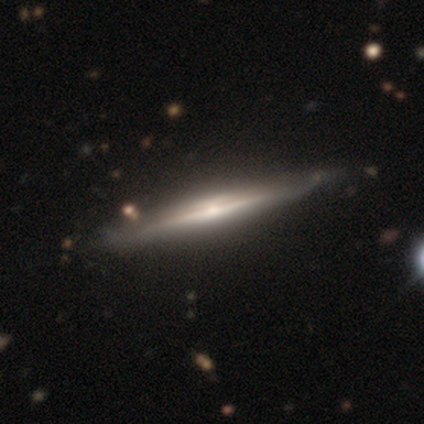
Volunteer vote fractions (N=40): Q: Smooth or featured?
A: featured or disk (92%); runner-up: smooth (8%)
Q: Edge-on disk?
A: yes (100%)
Q: Edge-on bulge?
A: rounded (68%); runner-up: none (24%)
Q: Merging?
A: none (68%); runner-up: minor disturbance (2%)